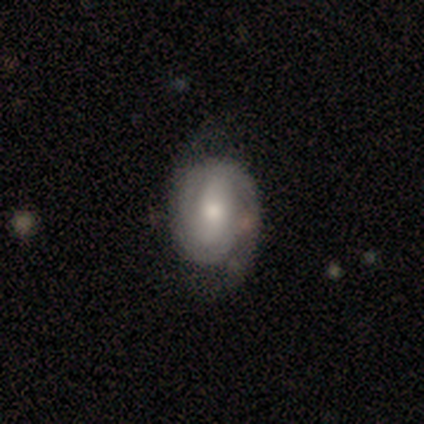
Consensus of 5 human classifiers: A featured or disk galaxy (60%) with a strong bar (33%, tied with weak and no), 2 (33%, tied with 3 and can't tell) tight (67%) spiral arms (100%) and a moderate central bulge (100%). Merging: none (80%).